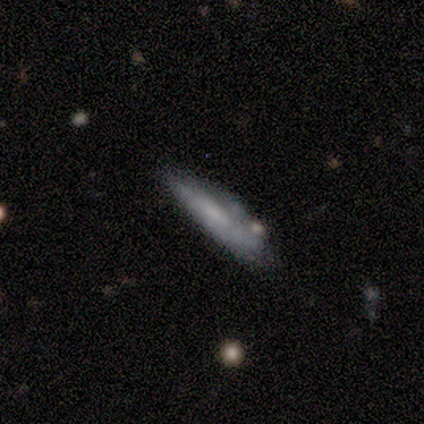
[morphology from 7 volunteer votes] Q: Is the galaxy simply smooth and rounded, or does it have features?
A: featured or disk — 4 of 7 (57%).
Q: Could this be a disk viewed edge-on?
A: yes — 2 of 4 (50%, tied with no).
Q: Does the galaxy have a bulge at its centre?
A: none — 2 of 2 (100%).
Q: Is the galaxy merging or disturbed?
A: none — 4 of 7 (57%).